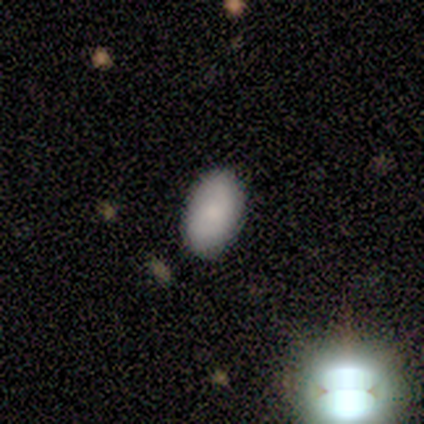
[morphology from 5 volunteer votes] A smooth galaxy with no disk features (100%) that is in between round and cigar-shaped (100%).

Vote fractions:
- Smooth or featured? smooth: 100% / featured or disk: 0% / star or artifact: 0%
- How rounded? in between: 100% / round: 0% / cigar-shaped: 0%
- Merging? none: 100% / minor disturbance: 0% / major disturbance: 0% / merger: 0%